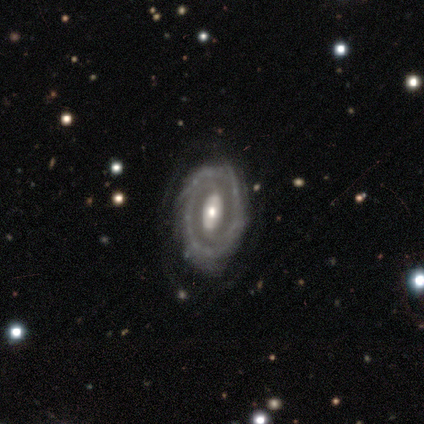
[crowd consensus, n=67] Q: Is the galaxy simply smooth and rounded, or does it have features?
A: featured or disk — 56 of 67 (84%).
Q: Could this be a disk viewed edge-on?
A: no — 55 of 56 (98%).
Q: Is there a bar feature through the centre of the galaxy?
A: no — 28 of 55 (51%).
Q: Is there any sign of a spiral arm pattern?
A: yes — 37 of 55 (67%).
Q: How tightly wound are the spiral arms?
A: tight — 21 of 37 (57%).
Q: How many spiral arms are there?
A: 2 — 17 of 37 (46%).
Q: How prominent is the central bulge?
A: moderate — 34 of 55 (62%).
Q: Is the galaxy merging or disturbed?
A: none — 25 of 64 (39%).